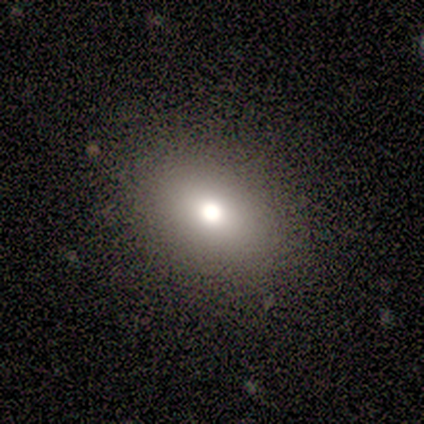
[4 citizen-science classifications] A smooth galaxy with no disk features (100%) that is round (75%).

Vote fractions:
- Smooth or featured? smooth: 100% / featured or disk: 0% / star or artifact: 0%
- How rounded? round: 75% / in between: 25% / cigar-shaped: 0%
- Merging? none: 75% / major disturbance: 25% / minor disturbance: 0% / merger: 0%